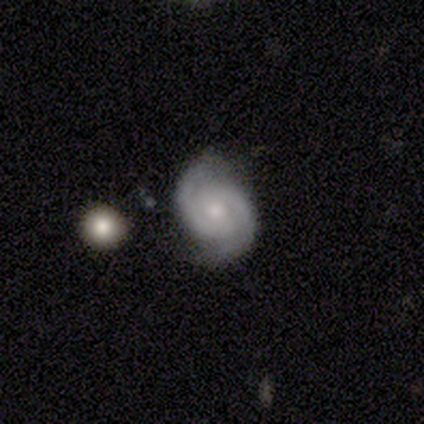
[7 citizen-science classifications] Overall: featured or disk (86%). Edge-on disk: no (100%). Bar: no (67%; weak 33%). Spiral arms: yes (100%). Spiral arm count: 2 (100%). Spiral winding: tight (50%, tied with medium). Bulge size: small (67%; moderate 33%). Merging: none (86%).